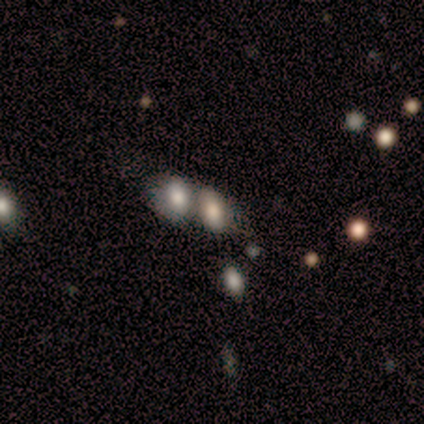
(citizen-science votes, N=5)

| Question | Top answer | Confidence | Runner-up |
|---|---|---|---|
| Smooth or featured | smooth | 80% | star or artifact (20%) |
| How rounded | in between | 100% | — |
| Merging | merger | 75% | none (25%) |